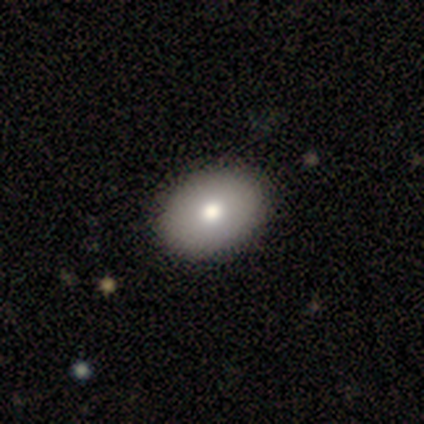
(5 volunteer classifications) smooth_or_featured: smooth (p=0.80) [alt: featured or disk p=0.20]
how_rounded: in between (p=0.75) [alt: round p=0.25]
merging: none (p=1.00)